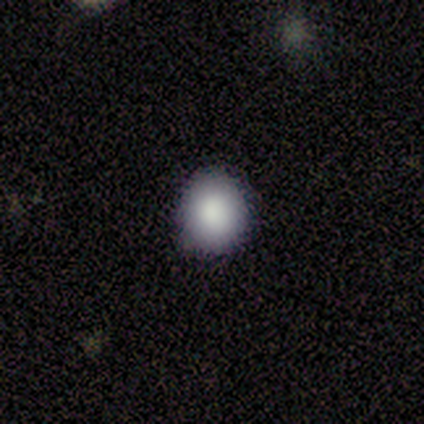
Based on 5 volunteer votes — smooth-or-featured: smooth: 80% | featured or disk: 20% | star or artifact: 0%
  how-rounded: round: 75% | in between: 25% | cigar-shaped: 0%
  merging: none: 80% | major disturbance: 20% | minor disturbance: 0% | merger: 0%